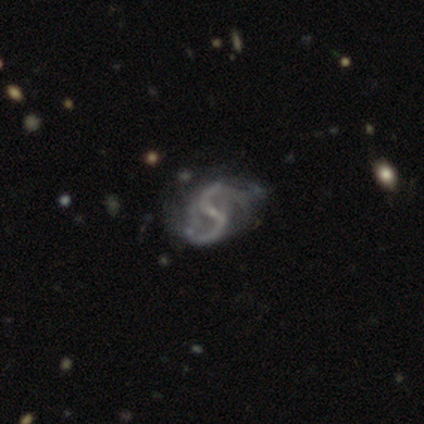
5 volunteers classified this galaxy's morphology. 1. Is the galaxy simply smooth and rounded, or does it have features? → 80% featured or disk, 20% star or artifact, 0% smooth.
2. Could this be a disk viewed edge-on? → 100% no, 0% yes.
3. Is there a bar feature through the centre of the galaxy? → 75% weak, 25% strong, 0% no.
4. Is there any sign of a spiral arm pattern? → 100% yes, 0% no.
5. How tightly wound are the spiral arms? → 50% medium (tied), 50% loose (tied), 0% tight.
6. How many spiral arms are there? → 100% 2, 0% 1, 0% 3, 0% 4, 0% more than 4, 0% can't tell.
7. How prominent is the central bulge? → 75% small, 25% moderate, 0% dominant, 0% large, 0% none.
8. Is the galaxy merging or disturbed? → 50% major disturbance, 25% none, 25% minor disturbance, 0% merger.